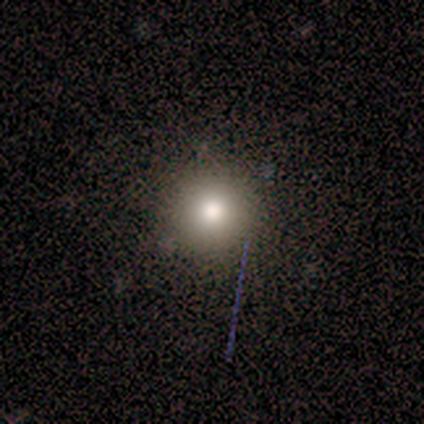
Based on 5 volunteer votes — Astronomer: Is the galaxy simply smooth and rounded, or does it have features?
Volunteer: smooth — 100%.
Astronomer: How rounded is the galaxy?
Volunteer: round — 100%.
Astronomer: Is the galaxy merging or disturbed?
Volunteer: none — 60%.